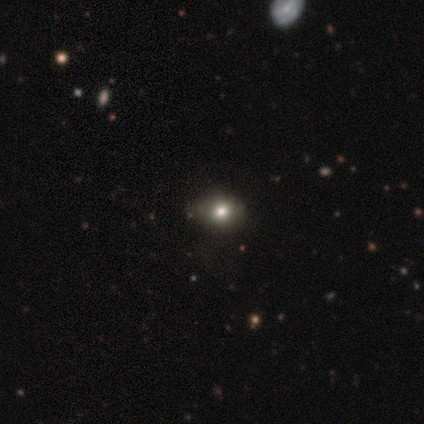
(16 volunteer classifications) smooth-or-featured: smooth: 69% | star or artifact: 31% | featured or disk: 0%
  how-rounded: in between: 73% | round: 27% | cigar-shaped: 0%
  merging: none: 82% | minor disturbance: 18% | major disturbance: 0% | merger: 0%